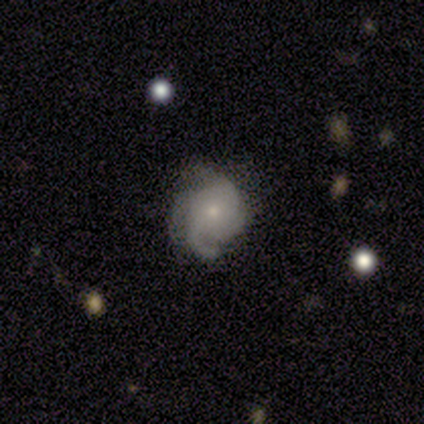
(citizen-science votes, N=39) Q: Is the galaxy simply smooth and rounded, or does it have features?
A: featured or disk — 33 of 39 (85%).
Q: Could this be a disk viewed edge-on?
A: no — 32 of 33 (97%).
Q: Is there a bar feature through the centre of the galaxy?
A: no — 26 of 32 (81%).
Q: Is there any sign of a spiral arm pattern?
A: yes — 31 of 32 (97%).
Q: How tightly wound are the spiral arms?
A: medium — 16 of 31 (52%).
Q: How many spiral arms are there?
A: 3 — 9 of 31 (29%).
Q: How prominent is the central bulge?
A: small — 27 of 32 (84%).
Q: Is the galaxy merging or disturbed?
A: none — 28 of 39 (72%).